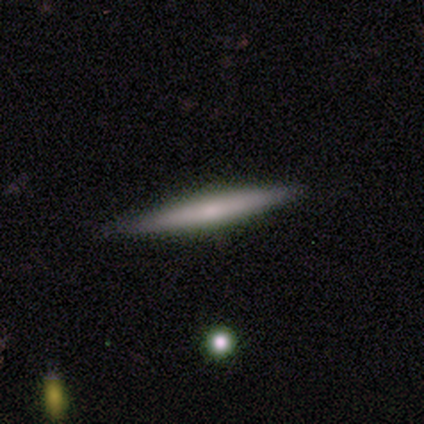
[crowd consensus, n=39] This appears to be a smooth galaxy with no disk features (49%) that is cigar-shaped (95%). Merging: none (95%).